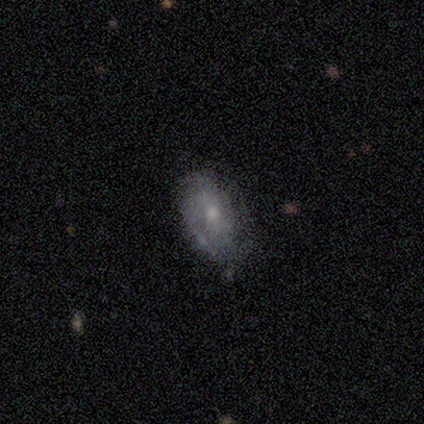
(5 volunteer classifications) Smooth or featured? featured or disk (80%)
Edge-on disk? no (100%)
Bar? no (75%)
Spiral arms? yes (100%)
Spiral winding? tight (75%)
Spiral arm count? 2 (50%, tied with 4)
Bulge size? moderate (50%)
Merging? minor disturbance (60%)